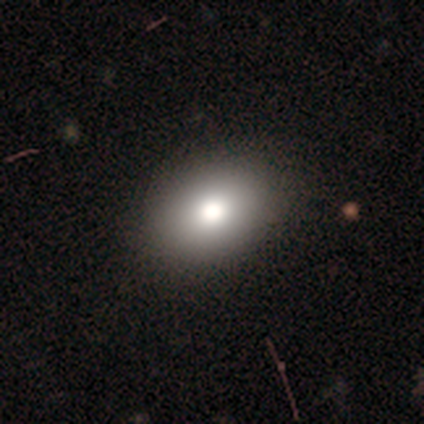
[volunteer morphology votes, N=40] Smooth or featured: smooth — 80% (featured or disk — 12%)
How rounded: in between — 75% (round — 25%)
Merging: none — 65% (minor disturbance — 3%)